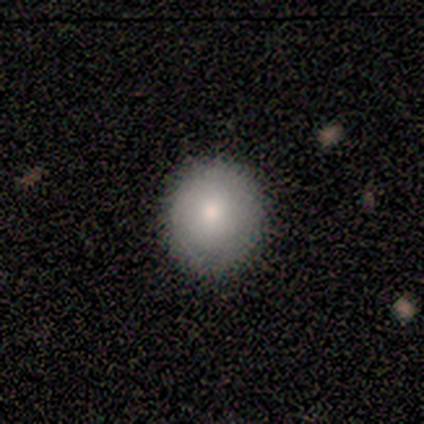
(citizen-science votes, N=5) Q: Smooth or featured?
A: smooth (80%); runner-up: star or artifact (20%)
Q: How rounded?
A: round (100%)
Q: Merging?
A: none (75%); runner-up: minor disturbance (25%)